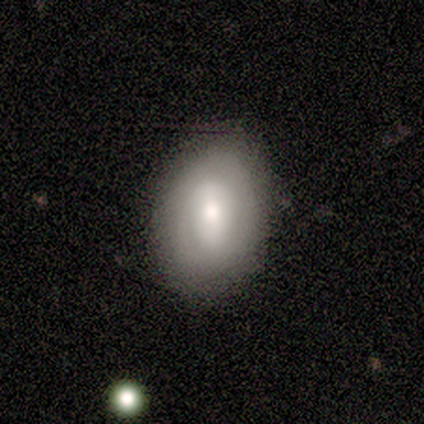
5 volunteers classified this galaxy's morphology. smooth-or-featured: featured or disk: 80% | smooth: 20% | star or artifact: 0%
  disk-edge-on: no: 100% | yes: 0%
    bar: strong: 75% | no: 25% | weak: 0%
    has-spiral-arms: yes: 50% (tied) | no: 50% (tied)
      spiral-winding: tight: 100% | medium: 0% | loose: 0%
      spiral-arm-count: 1: 100% | 2: 0% | 3: 0% | 4: 0% | more than 4: 0% | can't tell: 0%
    bulge-size: moderate: 100% | dominant: 0% | large: 0% | small: 0% | none: 0%
  merging: none: 60% | minor disturbance: 40% | major disturbance: 0% | merger: 0%